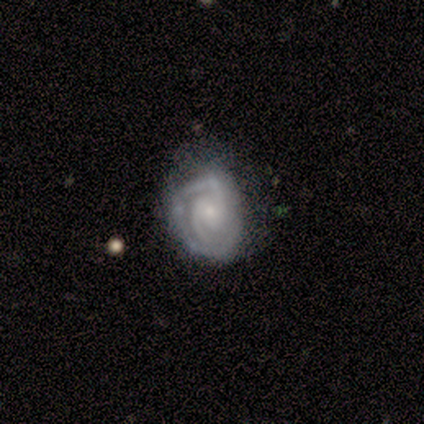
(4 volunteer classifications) A featured or disk galaxy (50%) with a weak bar (50%, tied with no), 2 (100%) tight (100%) spiral arms (100%) and a small central bulge (50%, tied with none). Merging: none (67%).